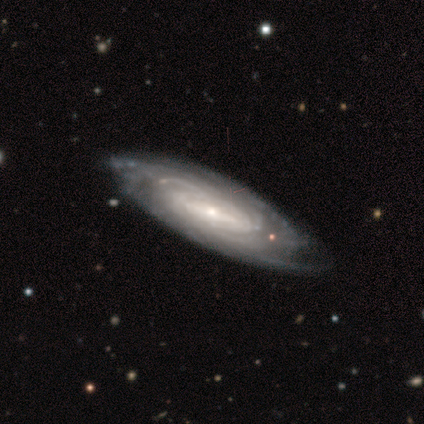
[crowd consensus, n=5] smooth-or-featured: featured or disk: 100% | smooth: 0% | star or artifact: 0%
  disk-edge-on: no: 100% | yes: 0%
    bar: no: 60% | weak: 40% | strong: 0%
    has-spiral-arms: yes: 100% | no: 0%
      spiral-winding: tight: 60% | medium: 40% | loose: 0%
      spiral-arm-count: can't tell: 80% | more than 4: 20% | 1: 0% | 2: 0% | 3: 0% | 4: 0%
    bulge-size: small: 100% | dominant: 0% | large: 0% | moderate: 0% | none: 0%
  merging: none: 60% | minor disturbance: 40% | major disturbance: 0% | merger: 0%